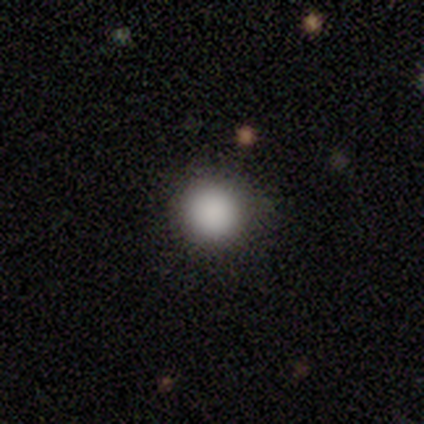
Smooth or featured? 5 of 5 (100%) said smooth. How rounded? 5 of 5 (100%) said round. Merging? 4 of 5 (80%) said none.